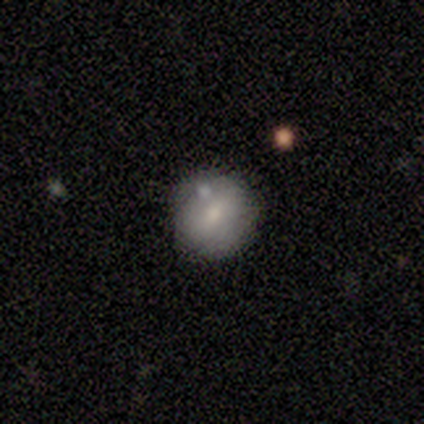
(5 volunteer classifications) A smooth galaxy with no disk features (60%) that is round (100%).

Vote fractions:
- Smooth or featured? smooth: 60% / featured or disk: 40% / star or artifact: 0%
- How rounded? round: 100% / in between: 0% / cigar-shaped: 0%
- Merging? none: 80% / merger: 20% / minor disturbance: 0% / major disturbance: 0%